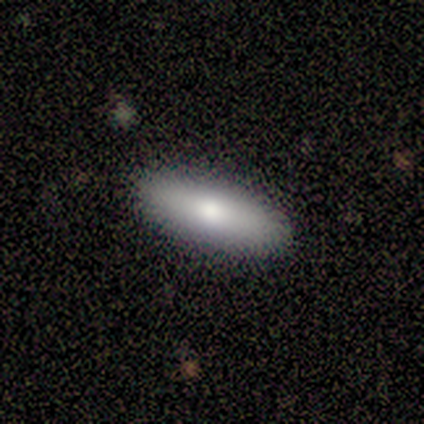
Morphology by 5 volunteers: Smooth or featured? smooth (80%)
How rounded? in between (75%)
Merging? none (60%)